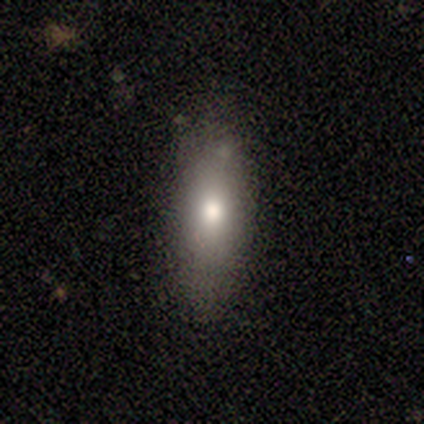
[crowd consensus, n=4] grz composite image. It shows a smooth galaxy with no disk features (50%, tied with featured or disk) that is in between round and cigar-shaped (50%, tied with cigar-shaped). Merging: none (75%).